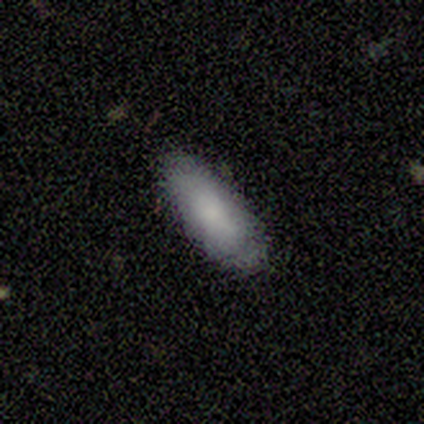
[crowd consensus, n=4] Overall: smooth (100%). How rounded: in between (75%). Merging: none (75%).